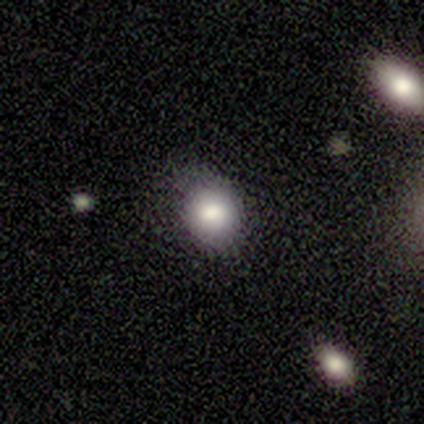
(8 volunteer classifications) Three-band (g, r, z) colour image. It shows a smooth galaxy with no disk features (100%) that is round (88%). Merging: none (62%).